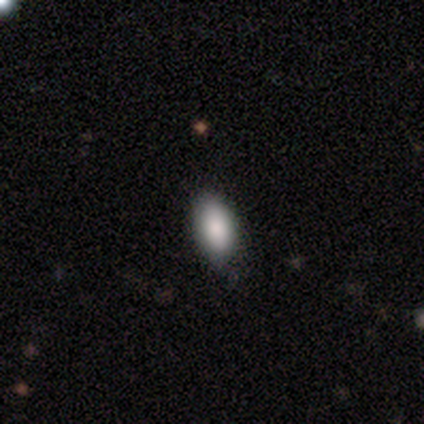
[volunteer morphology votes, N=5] Q: Smooth or featured?
A: smooth (100%)
Q: How rounded?
A: in between (100%)
Q: Merging?
A: none (60%); runner-up: minor disturbance (40%)